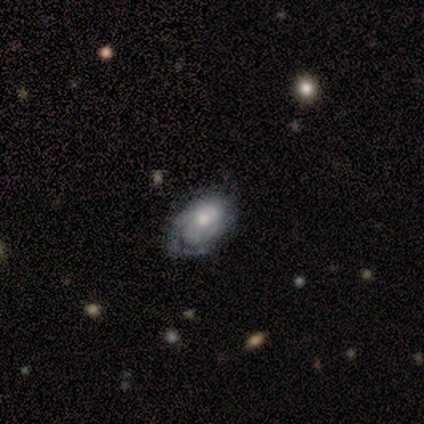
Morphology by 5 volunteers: Volunteers were most divided on "spiral arm count" (3-way tie): 1: 33%, 2: 33%, can't tell: 33%, 3: 0%, 4: 0%, more than 4: 0%. More confident: edge-on disk — no (100%); smooth or featured — featured or disk (80%); bar — no (75%); spiral arms — yes (75%); spiral winding — tight (67%); merging — minor disturbance (60%); bulge size — moderate (50%).